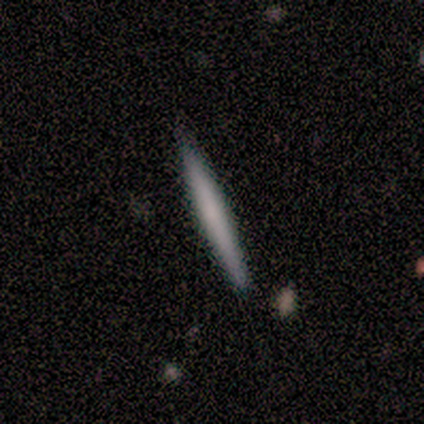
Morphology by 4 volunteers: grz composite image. It shows a smooth galaxy with no disk features (75%) that is cigar-shaped (100%). Merging: none (100%).